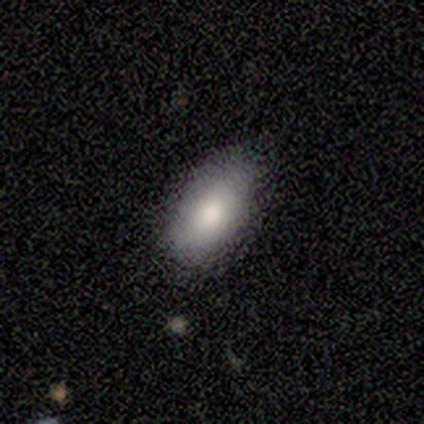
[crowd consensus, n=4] This is clearly a smooth galaxy (100%). How rounded: clearly in between (100%). Merging: clearly none (100%).